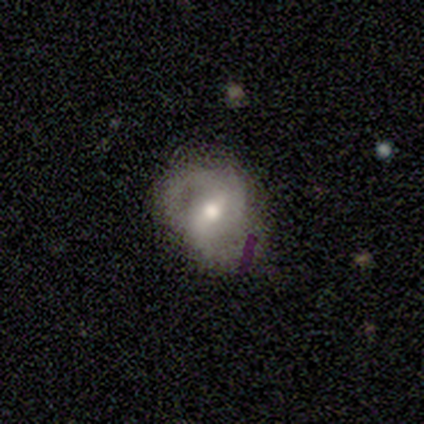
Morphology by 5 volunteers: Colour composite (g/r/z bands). It shows a featured or disk galaxy (60%) with a weak bar (67%), 2 (100%) medium (100%) spiral arms (100%) and a small central bulge (67%). Merging: none (100%).